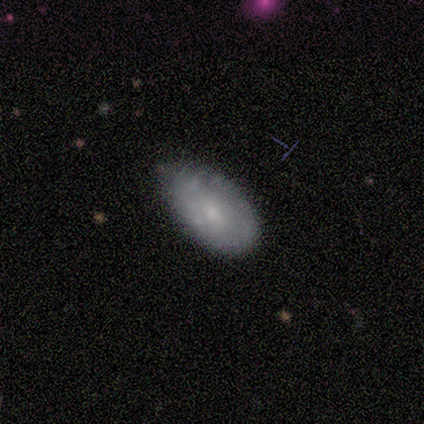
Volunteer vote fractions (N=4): Smooth or featured? smooth (75%)
How rounded? in between (100%)
Merging? none (75%)